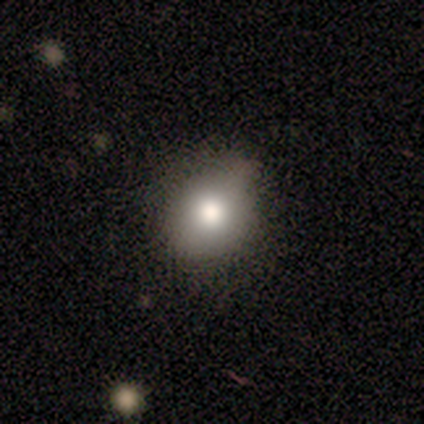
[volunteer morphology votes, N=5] smooth_or_featured: smooth (p=0.80) [alt: featured or disk p=0.20]
how_rounded: round (p=1.00)
merging: none (p=0.40) [tied with: minor disturbance p=0.40]